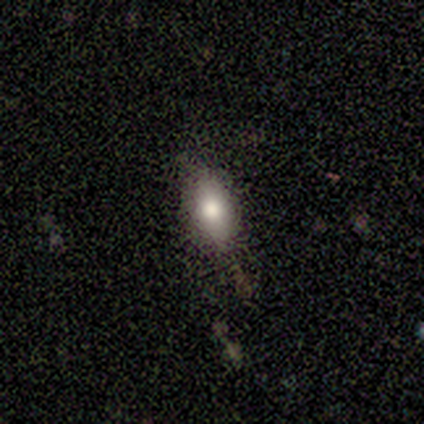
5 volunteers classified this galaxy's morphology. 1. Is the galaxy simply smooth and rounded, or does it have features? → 80% smooth, 20% featured or disk, 0% star or artifact.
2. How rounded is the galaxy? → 100% in between, 0% round, 0% cigar-shaped.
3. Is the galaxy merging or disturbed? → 60% minor disturbance, 40% none, 0% major disturbance, 0% merger.